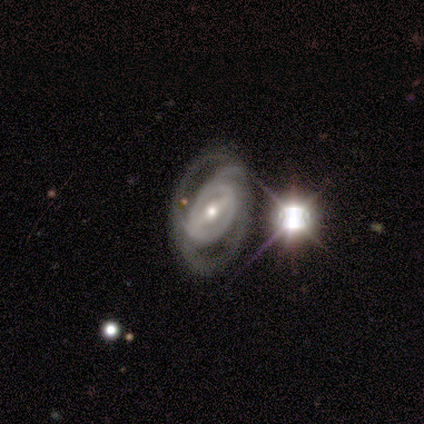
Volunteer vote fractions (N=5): Smooth or featured? 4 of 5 (80%) said featured or disk. Edge-on disk? 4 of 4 (100%) said no. Bar? 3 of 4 (75%) said weak. Spiral arms? 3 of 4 (75%) said yes. Spiral winding? 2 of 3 (67%) said tight. Spiral arm count? 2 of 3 (67%) said can't tell. Bulge size? 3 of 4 (75%) said small. Merging? 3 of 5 (60%) said none.